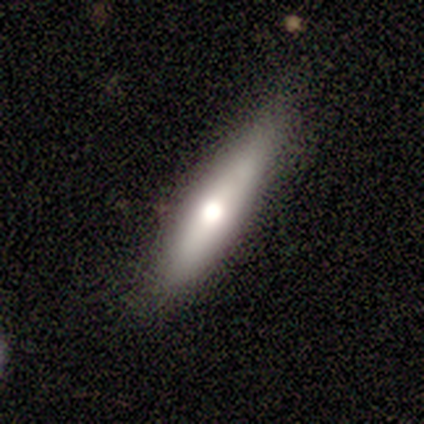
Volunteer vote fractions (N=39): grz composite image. It shows a smooth galaxy with no disk features (54%) that is cigar-shaped (81%). Merging: none (70%).